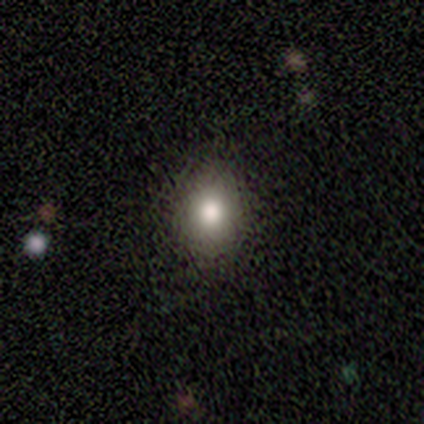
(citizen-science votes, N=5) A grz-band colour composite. It shows a smooth galaxy with no disk features (60%) that is round (100%). Merging: none (100%).